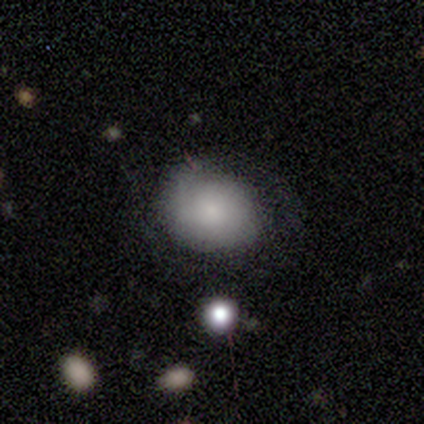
Smooth or featured: smooth — 60% (featured or disk — 40%)
How rounded: round — 67% (in between — 33%)
Merging: none — 60% (major disturbance — 20%)